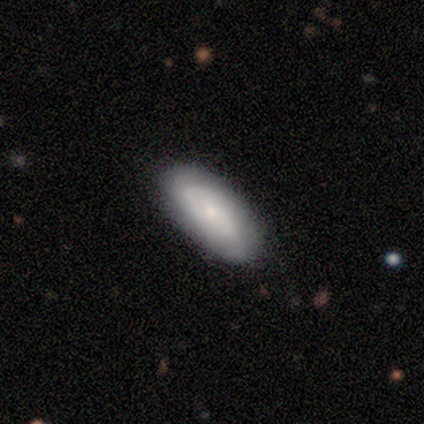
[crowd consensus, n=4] smooth_or_featured: smooth (p=0.50) [alt: featured or disk p=0.25]
how_rounded: in between (p=1.00)
merging: none (p=0.67) [alt: minor disturbance p=0.33]